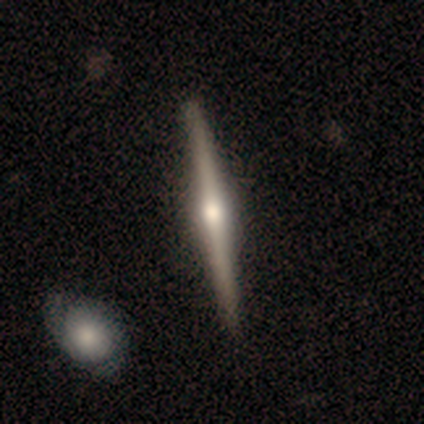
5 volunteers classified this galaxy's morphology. Smooth or featured? 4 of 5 (80%) said featured or disk. Edge-on disk? 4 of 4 (100%) said yes. Edge-on bulge? 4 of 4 (100%) said rounded. Merging? 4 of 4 (100%) said none.